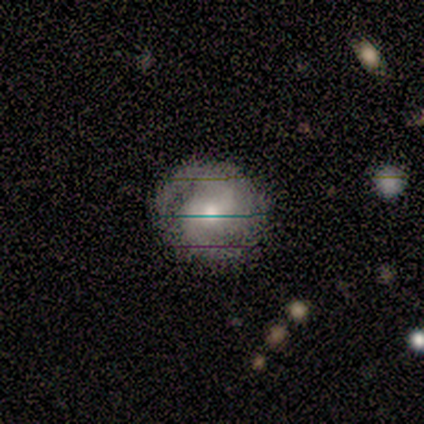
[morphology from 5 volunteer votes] Smooth or featured: featured or disk — 60% (smooth — 40%)
Edge-on disk: no — 100%
Bar: no — 100%
Spiral arms: yes — 100%
Spiral winding: tight — 33% (tied with medium — 33%; loose — 33%)
Spiral arm count: 2 — 100%
Bulge size: moderate — 67% (small — 33%)
Merging: none — 80% (minor disturbance — 20%)